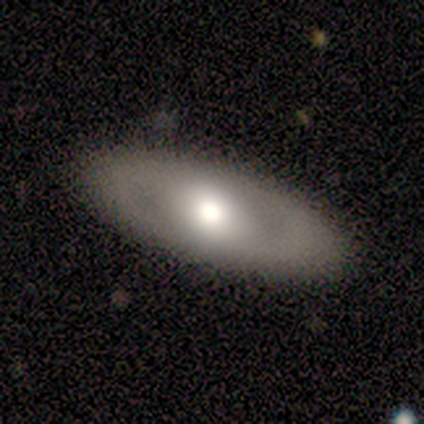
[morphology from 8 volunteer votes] Smooth or featured?
  - featured or disk: 62% *
  - smooth: 38%
  - star or artifact: 0%
Edge-on disk?
  - no: 80% *
  - yes: 20%
Bar?
  - weak: 50% * (tied)
  - no: 50% * (tied)
  - strong: 0%
Spiral arms?
  - yes: 50% * (tied)
  - no: 50% * (tied)
Spiral winding?
  - medium: 100% *
  - tight: 0%
  - loose: 0%
Spiral arm count?
  - 2: 50% * (tied)
  - can't tell: 50% * (tied)
  - 1: 0%
  - 3: 0%
  - 4: 0%
  - more than 4: 0%
Bulge size?
  - moderate: 100% *
  - dominant: 0%
  - large: 0%
  - small: 0%
  - none: 0%
Merging?
  - none: 100% *
  - minor disturbance: 0%
  - major disturbance: 0%
  - merger: 0%